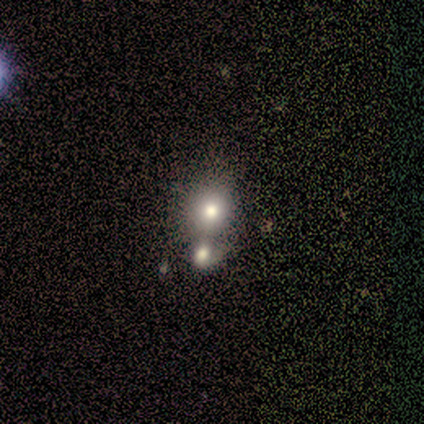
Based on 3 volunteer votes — smooth 100%, featured or disk 0%, star or artifact 0%. Down the decision tree: how rounded — round (67%); merging — none (100%).